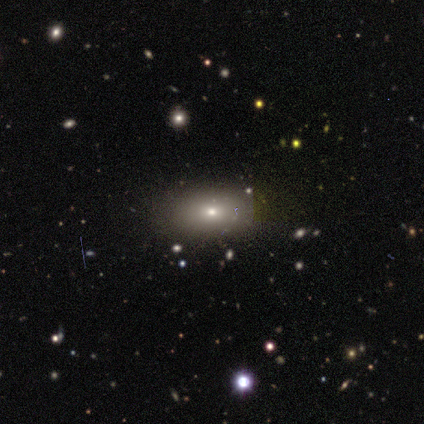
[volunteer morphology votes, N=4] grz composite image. It shows a smooth galaxy with no disk features (50%) that is in between round and cigar-shaped (50%, tied with cigar-shaped). Merging: none (67%).